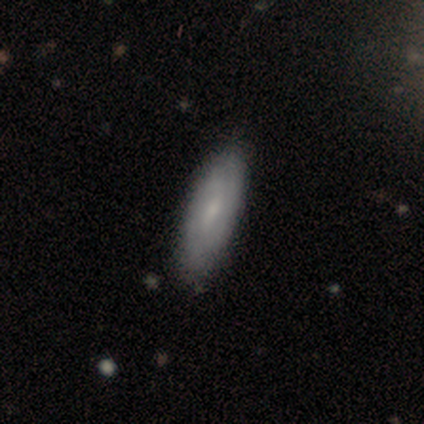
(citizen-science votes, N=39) Overall: smooth (51%; featured or disk 38%). How rounded: in between (60%; cigar-shaped 40%). Merging: none (83%).